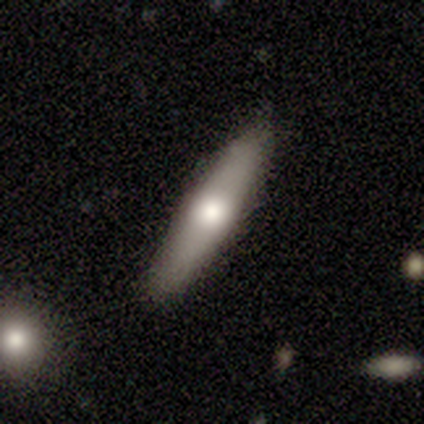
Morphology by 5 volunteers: Smooth or featured? 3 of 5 (60%) said smooth. How rounded? 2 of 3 (67%) said cigar-shaped. Merging? 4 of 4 (100%) said none.